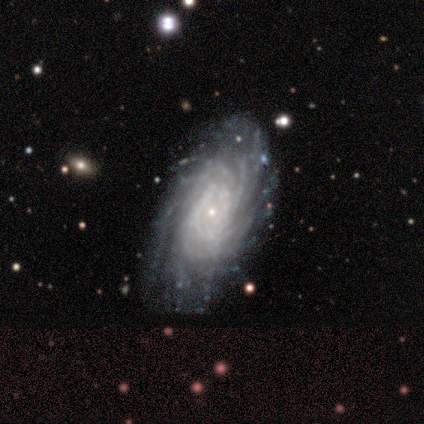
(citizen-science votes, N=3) A featured or disk galaxy (100%) with no bar (67%), 4 (67%) tight (67%) spiral arms (100%) and a small central bulge (67%). Merging: none (100%).